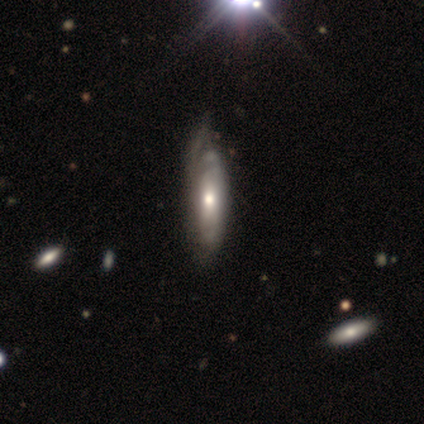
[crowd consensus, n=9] Q: Smooth or featured?
A: featured or disk (89%); runner-up: star or artifact (11%)
Q: Edge-on disk?
A: yes (50%); tied with: no (50%)
Q: Edge-on bulge?
A: rounded (75%); runner-up: boxy (25%)
Q: Merging?
A: minor disturbance (62%); runner-up: none (25%)